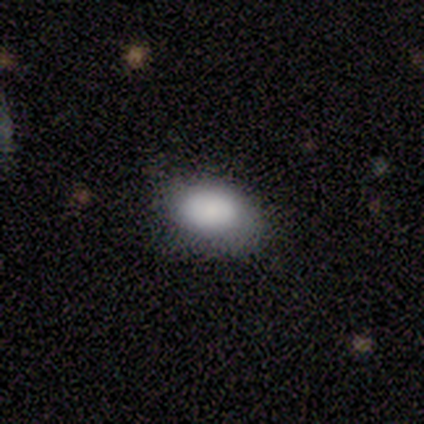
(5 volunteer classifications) Smooth or featured? 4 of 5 (80%) said smooth. How rounded? 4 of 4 (100%) said in between. Merging? 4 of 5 (80%) said none.